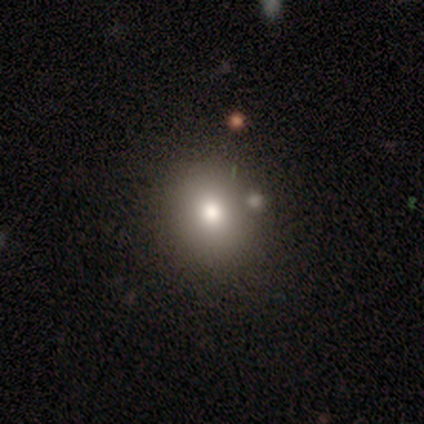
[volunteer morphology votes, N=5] Volunteers were most divided on "how rounded": round: 60%, in between: 40%, cigar-shaped: 0%. More confident: smooth or featured — smooth (100%); merging — none (60%).